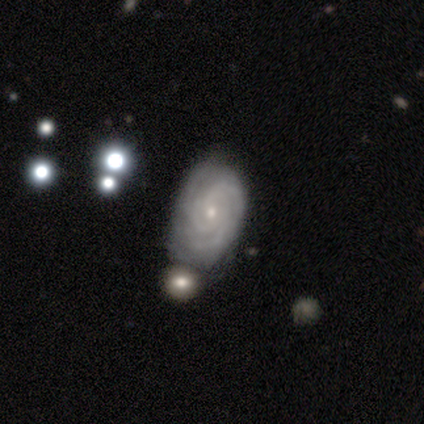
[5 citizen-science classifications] Smooth or featured: featured or disk — 100%
Edge-on disk: no — 100%
Bar: no — 80% (weak — 20%)
Spiral arms: yes — 80% (no — 20%)
Spiral winding: tight — 100%
Spiral arm count: 3 — 75% (can't tell — 25%)
Bulge size: small — 60% (moderate — 40%)
Merging: minor disturbance — 60% (none — 20%)